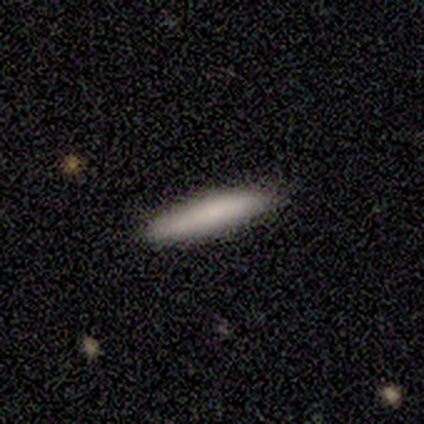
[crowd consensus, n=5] smooth-or-featured: smooth: 80% | featured or disk: 20% | star or artifact: 0%
  how-rounded: cigar-shaped: 100% | round: 0% | in between: 0%
  merging: none: 100% | minor disturbance: 0% | major disturbance: 0% | merger: 0%